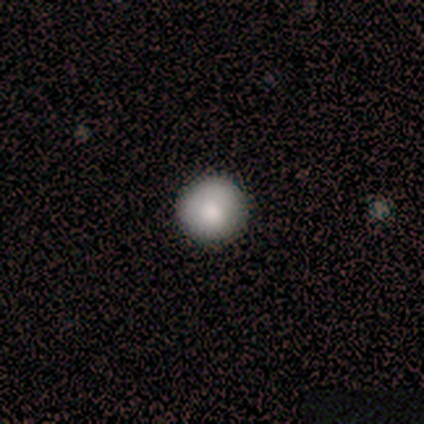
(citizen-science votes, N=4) Morphology: type=smooth (75%); roundness=round (100%); merging=none (100%).